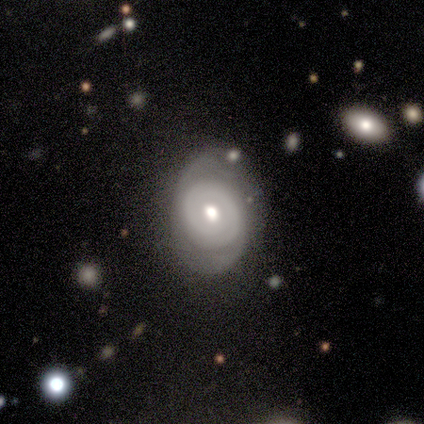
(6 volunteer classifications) Q: Smooth or featured?
A: featured or disk (67%); runner-up: smooth (17%)
Q: Edge-on disk?
A: no (100%)
Q: Bar?
A: no (75%); runner-up: weak (25%)
Q: Spiral arms?
A: yes (75%); runner-up: no (25%)
Q: Spiral winding?
A: tight (100%)
Q: Spiral arm count?
A: 1 (33%); tied with: 2 (33%); can't tell (33%)
Q: Bulge size?
A: moderate (75%); runner-up: small (25%)
Q: Merging?
A: none (40%); tied with: major disturbance (40%)